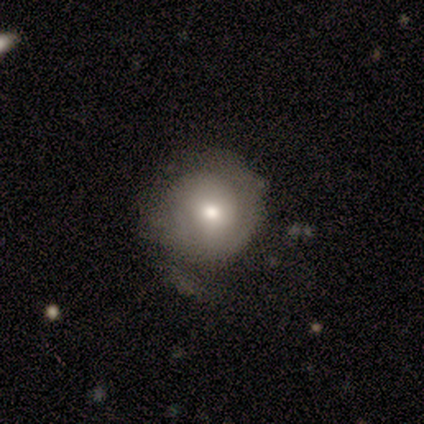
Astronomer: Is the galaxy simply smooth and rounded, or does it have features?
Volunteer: smooth — 71%.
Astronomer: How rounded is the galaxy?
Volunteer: round — 100%.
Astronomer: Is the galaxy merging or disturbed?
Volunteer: none — 86%.